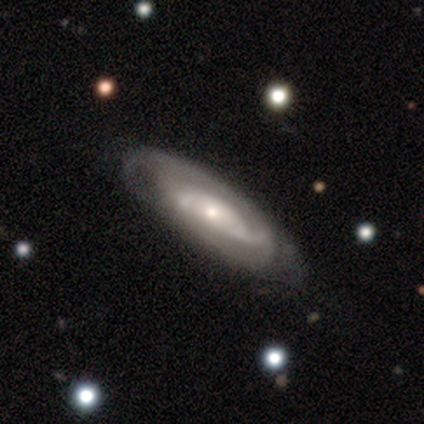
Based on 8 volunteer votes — A featured or disk galaxy (88%) with no bar (100%), 2 (60%) tight (40%, tied with medium) spiral arms (71%) and a small central bulge (57%).

Vote fractions:
- Smooth or featured? featured or disk: 88% / smooth: 12% / star or artifact: 0%
- Edge-on disk? no: 100% / yes: 0%
- Bar? no: 100% / strong: 0% / weak: 0%
- Spiral arms? yes: 71% / no: 29%
- Spiral winding? tight: 40% (tied) / medium: 40% (tied) / loose: 20%
- Spiral arm count? 2: 60% / 3: 20% / can't tell: 20% / 1: 0% / 4: 0% / more than 4: 0%
- Bulge size? small: 57% / moderate: 29% / large: 14% / dominant: 0% / none: 0%
- Merging? none: 50% / minor disturbance: 38% / major disturbance: 12% / merger: 0%